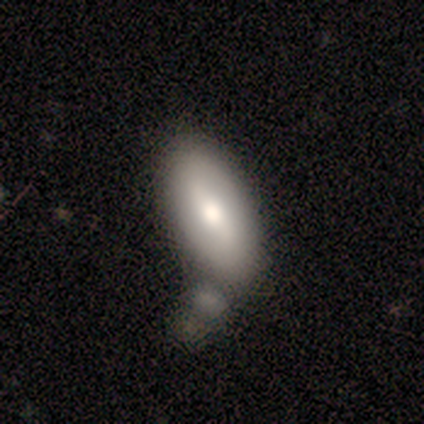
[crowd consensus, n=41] Smooth or featured? smooth (59%)
How rounded? in between (92%)
Merging? none (32%)